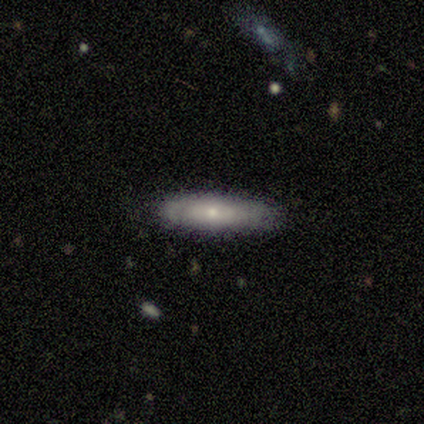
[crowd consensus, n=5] smooth-or-featured: smooth: 80% | featured or disk: 20% | star or artifact: 0%
  how-rounded: cigar-shaped: 100% | round: 0% | in between: 0%
  merging: none: 100% | minor disturbance: 0% | major disturbance: 0% | merger: 0%